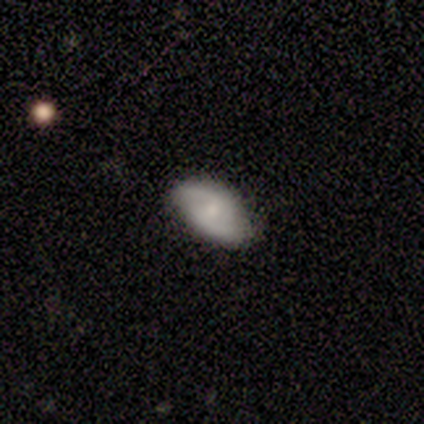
Smooth or featured? 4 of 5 (80%) said smooth. How rounded? 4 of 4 (100%) said in between. Merging? 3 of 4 (75%) said none.